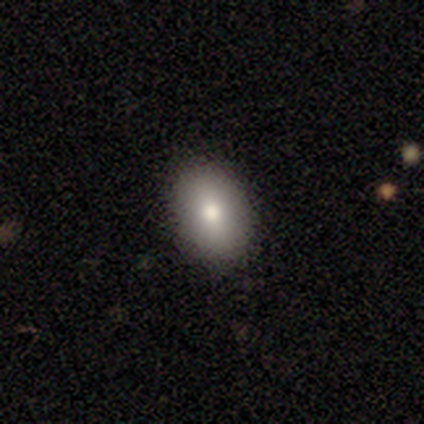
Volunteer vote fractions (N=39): Smooth or featured? 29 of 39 (74%) said smooth. How rounded? 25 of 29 (86%) said in between. Merging? 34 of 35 (97%) said none.